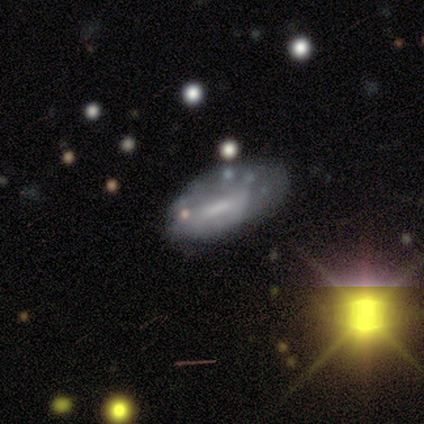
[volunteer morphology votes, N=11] Smooth or featured? 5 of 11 (45%, tied with featured or disk) said smooth. How rounded? 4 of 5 (80%) said in between. Merging? 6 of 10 (60%) said none.